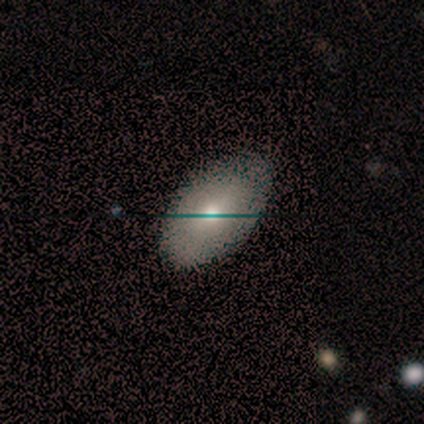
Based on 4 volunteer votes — Smooth or featured: smooth — 100%
How rounded: in between — 100%
Merging: none — 100%